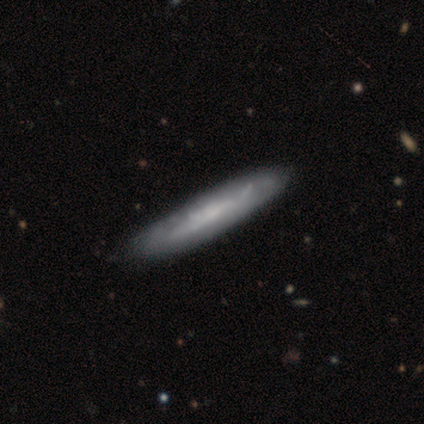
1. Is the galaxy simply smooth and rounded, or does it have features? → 59% featured or disk, 31% smooth, 10% star or artifact.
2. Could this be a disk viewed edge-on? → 57% yes, 43% no.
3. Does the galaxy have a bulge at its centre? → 69% none, 23% boxy, 8% rounded.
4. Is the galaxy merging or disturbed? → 49% none, 20% minor disturbance, 3% major disturbance, 3% merger.